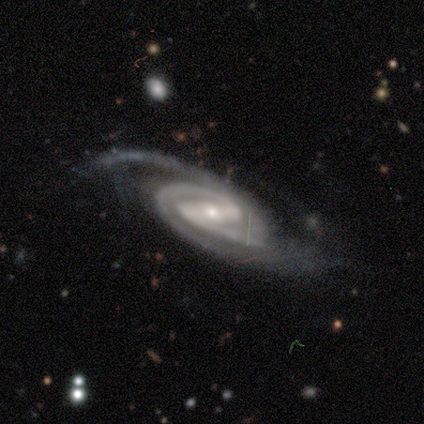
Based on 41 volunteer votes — Overall: featured or disk (85%). Edge-on disk: no (91%). Bar: strong (56%; weak 38%). Spiral arms: yes (100%). Spiral arm count: 2 (66%). Spiral winding: medium (50%; tight 41%). Bulge size: small (66%; moderate 34%). Merging: none (78%).